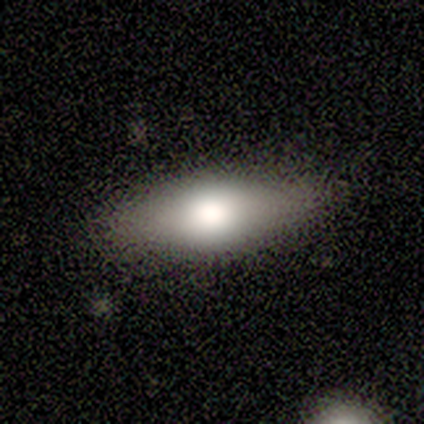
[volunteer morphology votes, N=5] smooth_or_featured: featured or disk (p=0.60) [alt: smooth p=0.40]
disk_edge_on: yes (p=0.67) [alt: no p=0.33]
edge_on_bulge: rounded (p=1.00)
merging: none (p=1.00)